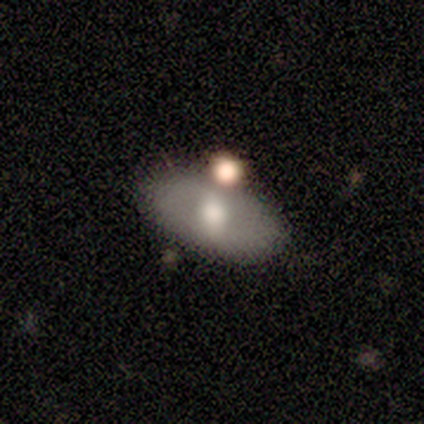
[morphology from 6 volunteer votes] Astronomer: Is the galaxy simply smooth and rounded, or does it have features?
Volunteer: smooth — 50%, tied with featured or disk at 50%.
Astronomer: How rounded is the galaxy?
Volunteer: in between — 100%.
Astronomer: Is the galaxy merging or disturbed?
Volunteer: none — 83%.